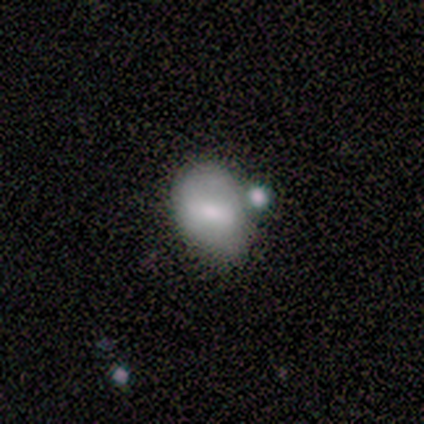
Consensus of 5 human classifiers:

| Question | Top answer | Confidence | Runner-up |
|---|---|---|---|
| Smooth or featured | smooth | 60% | featured or disk (20%) |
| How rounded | in between | 67% | round (33%) |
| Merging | none | 50% | minor disturbance (25%) |